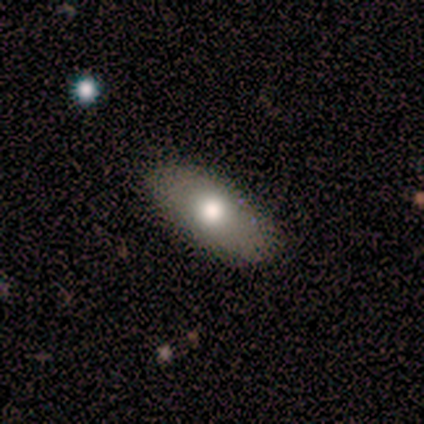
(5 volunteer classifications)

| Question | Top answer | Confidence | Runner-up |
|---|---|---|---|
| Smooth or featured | smooth | 60% | featured or disk (40%) |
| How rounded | in between | 100% | — |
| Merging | none | 60% | minor disturbance (20%) |